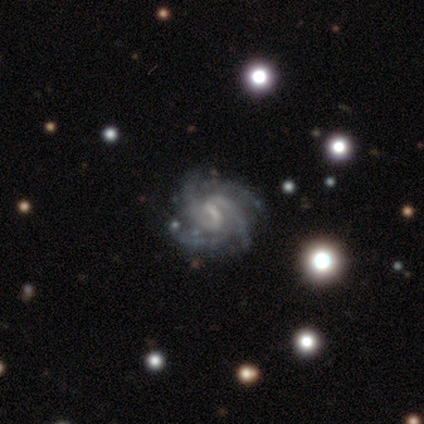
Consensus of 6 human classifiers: A featured or disk galaxy (83%) with a weak bar (60%), 4 (60%) tight (60%) spiral arms (100%) and a small central bulge (40%, tied with none). Merging: none (67%).